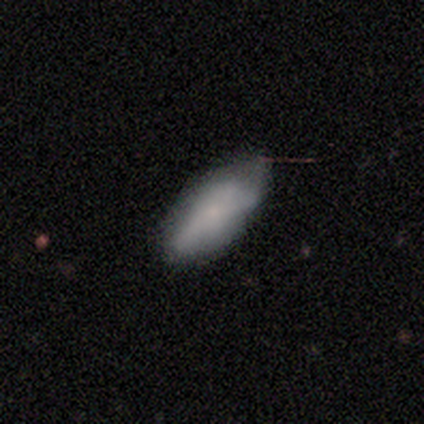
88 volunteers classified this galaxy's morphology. smooth_or_featured: smooth (p=0.70) [alt: featured or disk p=0.22]
how_rounded: in between (p=0.79) [alt: cigar-shaped p=0.19]
merging: none (p=0.64) [alt: minor disturbance p=0.32]